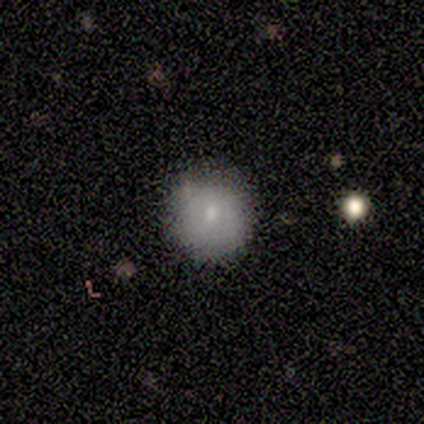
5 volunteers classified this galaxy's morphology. Smooth or featured? 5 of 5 (100%) said smooth. How rounded? 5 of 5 (100%) said round. Merging? 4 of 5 (80%) said none.